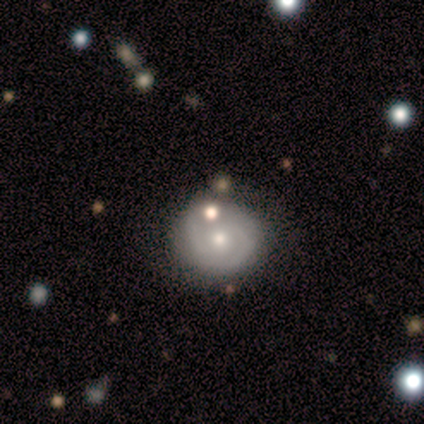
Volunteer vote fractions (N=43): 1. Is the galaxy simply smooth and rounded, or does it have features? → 58% featured or disk, 33% smooth, 9% star or artifact.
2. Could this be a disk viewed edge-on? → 100% no, 0% yes.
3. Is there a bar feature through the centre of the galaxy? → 72% no, 28% weak, 0% strong.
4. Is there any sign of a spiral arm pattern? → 76% yes, 24% no.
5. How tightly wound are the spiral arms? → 58% tight, 42% medium, 0% loose.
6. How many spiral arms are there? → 79% 2, 16% can't tell, 5% 3, 0% 1, 0% 4, 0% more than 4.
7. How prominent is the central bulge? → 80% moderate, 20% small, 0% dominant, 0% large, 0% none.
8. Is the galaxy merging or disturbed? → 62% none, 36% minor disturbance, 3% major disturbance, 0% merger.